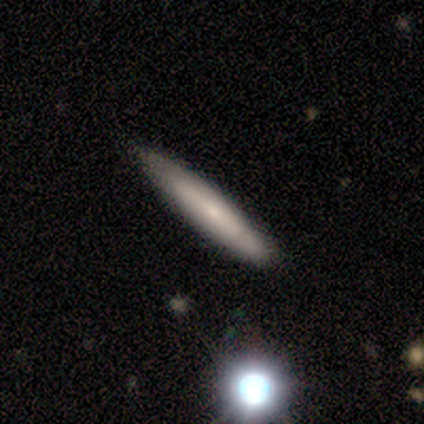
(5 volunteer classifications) smooth_or_featured: smooth (p=0.80) [alt: featured or disk p=0.20]
how_rounded: cigar-shaped (p=1.00)
merging: none (p=0.80) [alt: minor disturbance p=0.20]